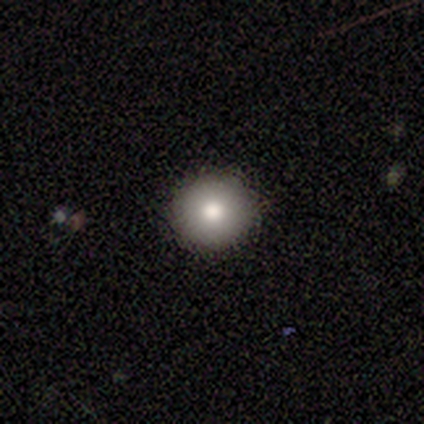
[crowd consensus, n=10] Volunteers were most divided on "merging": none: 89%, minor disturbance: 11%, major disturbance: 0%, merger: 0%. More confident: how rounded — round (100%); smooth or featured — smooth (90%).